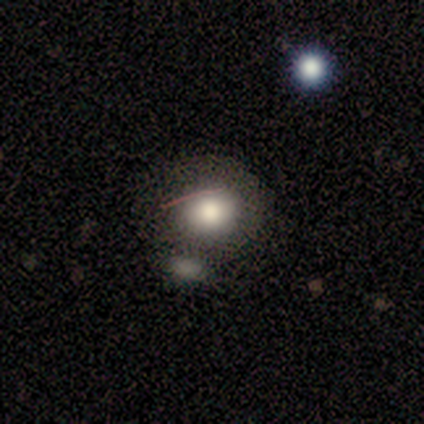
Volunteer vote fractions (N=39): A smooth galaxy with no disk features (79%) that is round (77%). Merging: none (49%).